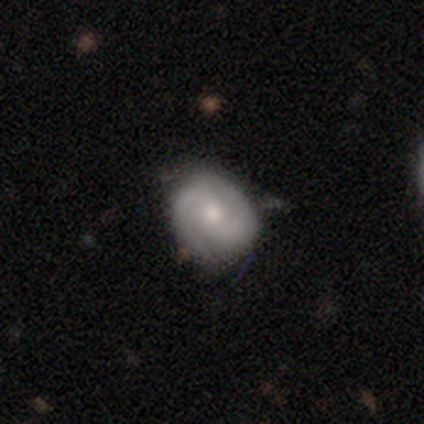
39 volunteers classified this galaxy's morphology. featured or disk 62%, smooth 36%, star or artifact 3%. Down the decision tree: edge-on disk — no (100%); bar — weak (50%); spiral arms — yes (88%); spiral arm count — 2 (71%); spiral winding — medium (48%); bulge size — moderate (54%); merging — none (71%).